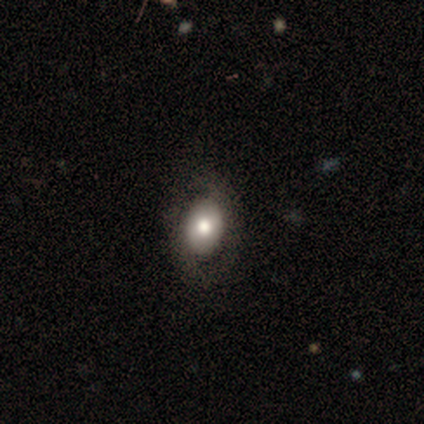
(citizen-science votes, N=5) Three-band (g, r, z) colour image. It shows a smooth galaxy with no disk features (80%) that is in between round and cigar-shaped (100%). Merging: none (40%, tied with minor disturbance).